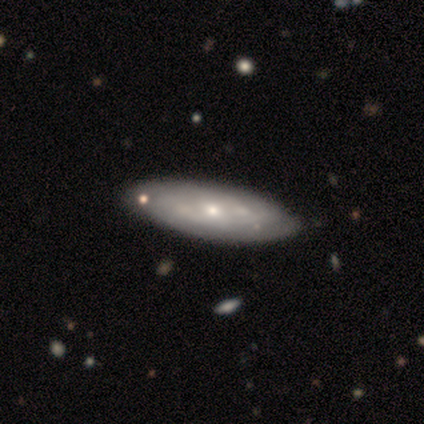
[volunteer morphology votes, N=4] Smooth or featured? 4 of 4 (100%) said featured or disk. Edge-on disk? 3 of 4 (75%) said no. Bar? 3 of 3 (100%) said no. Spiral arms? 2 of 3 (67%) said no. Bulge size? 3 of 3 (100%) said small. Merging? 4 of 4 (100%) said none.